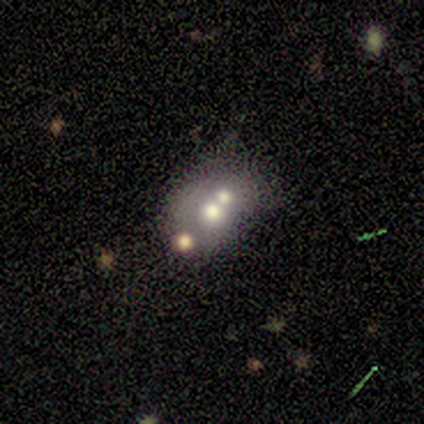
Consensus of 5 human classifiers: Smooth or featured? 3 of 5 (60%) said smooth. How rounded? 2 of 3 (67%) said in between. Merging? 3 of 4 (75%) said merger.